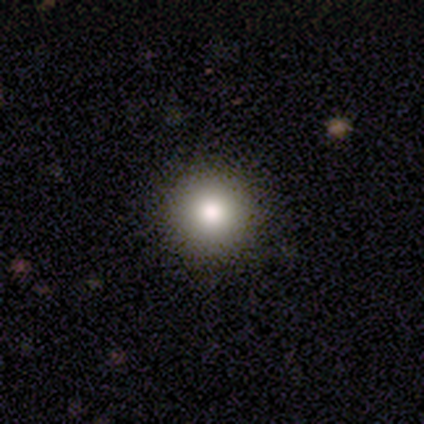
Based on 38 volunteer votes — smooth-or-featured: smooth: 74% | star or artifact: 18% | featured or disk: 8%
  how-rounded: round: 100% | in between: 0% | cigar-shaped: 0%
  merging: none: 94% | minor disturbance: 6% | major disturbance: 0% | merger: 0%